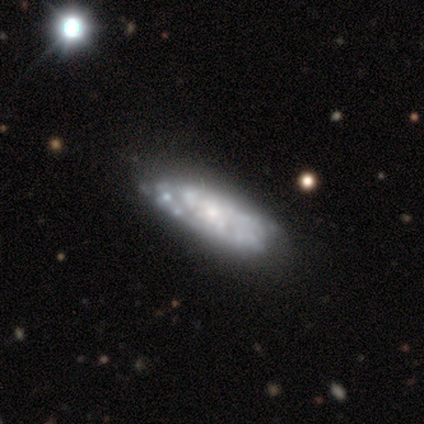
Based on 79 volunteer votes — Smooth or featured? 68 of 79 (86%) said featured or disk. Edge-on disk? 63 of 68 (93%) said no. Bar? 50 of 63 (79%) said no. Spiral arms? 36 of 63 (57%) said yes. Spiral winding? 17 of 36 (47%) said tight. Spiral arm count? 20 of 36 (56%) said can't tell. Bulge size? 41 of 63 (65%) said small. Merging? 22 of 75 (29%) said none.